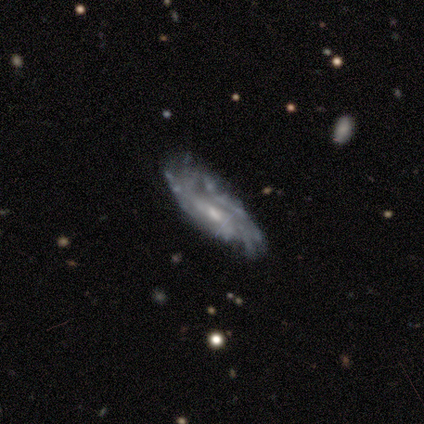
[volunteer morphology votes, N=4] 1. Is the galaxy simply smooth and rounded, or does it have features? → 100% featured or disk, 0% smooth, 0% star or artifact.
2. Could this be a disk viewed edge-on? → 100% no, 0% yes.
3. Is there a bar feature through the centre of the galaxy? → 75% no, 25% weak, 0% strong.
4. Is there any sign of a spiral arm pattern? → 75% yes, 25% no.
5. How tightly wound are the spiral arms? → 67% medium, 33% tight, 0% loose.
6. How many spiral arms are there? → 100% can't tell, 0% 1, 0% 2, 0% 3, 0% 4, 0% more than 4.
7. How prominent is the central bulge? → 75% moderate, 25% small, 0% dominant, 0% large, 0% none.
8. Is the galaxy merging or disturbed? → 50% minor disturbance, 25% none, 25% major disturbance, 0% merger.